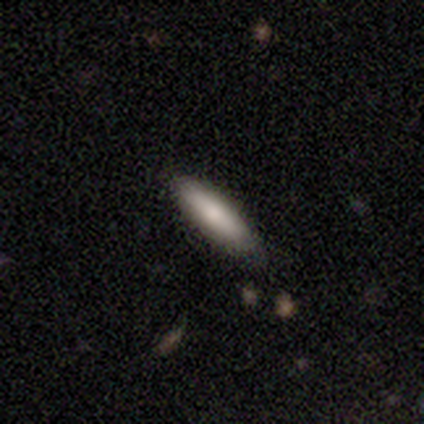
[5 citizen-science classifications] Smooth or featured?
  - smooth: 100% *
  - featured or disk: 0%
  - star or artifact: 0%
How rounded?
  - cigar-shaped: 80% *
  - in between: 20%
  - round: 0%
Merging?
  - none: 100% *
  - minor disturbance: 0%
  - major disturbance: 0%
  - merger: 0%